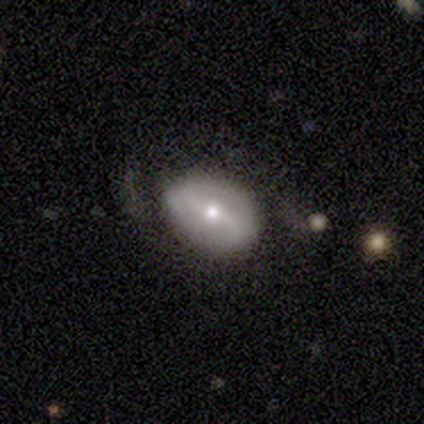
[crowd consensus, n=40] A featured or disk galaxy (55%) with a weak bar (45%), 2 (93%) loose (71%) spiral arms (64%) and a small central bulge (59%). Merging: none (66%).